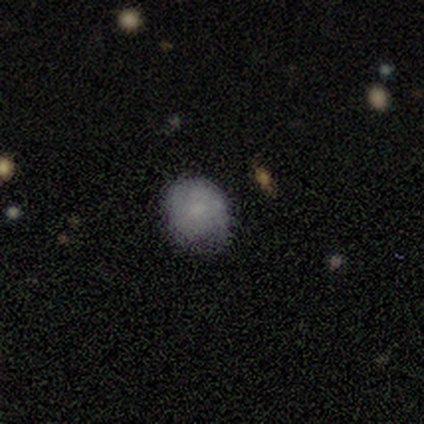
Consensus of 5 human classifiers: smooth_or_featured: smooth (p=1.00)
how_rounded: round (p=1.00)
merging: none (p=1.00)